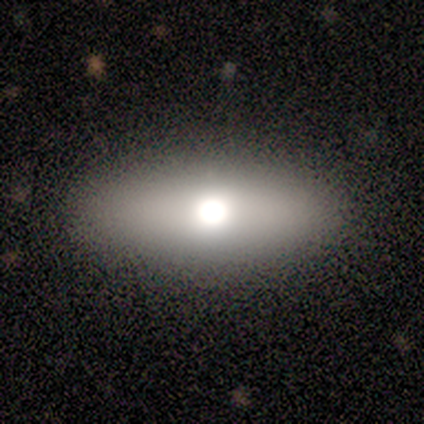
This is clearly a smooth galaxy (80%). How rounded: clearly in between (100%). Merging: clearly none (100%).